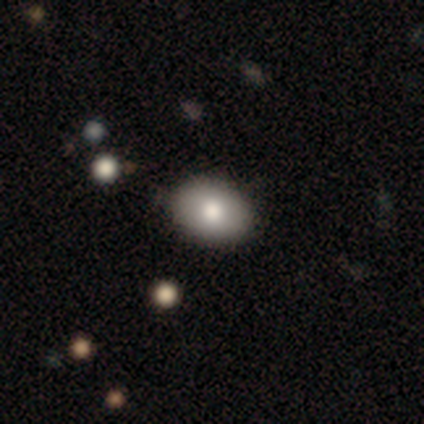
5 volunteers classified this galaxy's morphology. smooth-or-featured: smooth: 60% | star or artifact: 40% | featured or disk: 0%
  how-rounded: in between: 100% | round: 0% | cigar-shaped: 0%
  merging: none: 100% | minor disturbance: 0% | major disturbance: 0% | merger: 0%